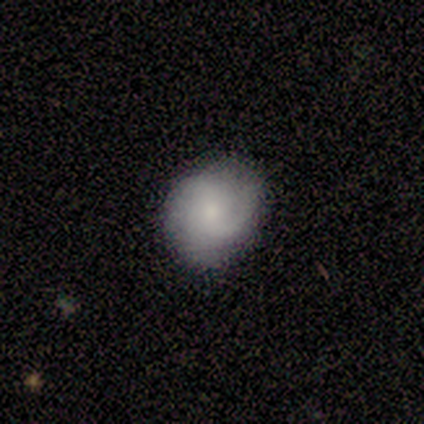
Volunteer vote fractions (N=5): This appears to be a featured or disk galaxy (60%) with no bar (67%), 2 (67%) loose (67%) spiral arms (100%) and a small central bulge (67%). Merging: none (100%).